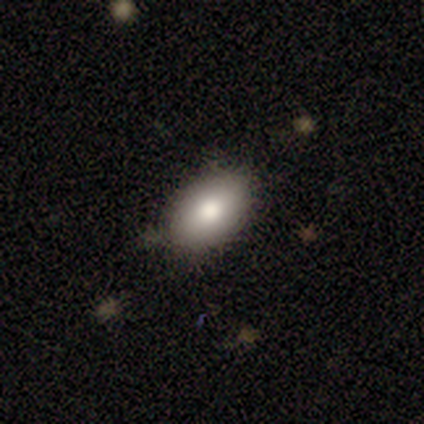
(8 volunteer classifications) This appears to be a smooth galaxy with no disk features (100%) that is in between round and cigar-shaped (88%). Merging: none (75%).